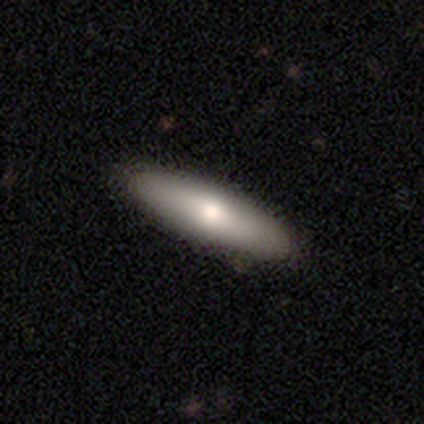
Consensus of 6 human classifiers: A smooth galaxy with no disk features (50%) that is cigar-shaped (67%).

Vote fractions:
- Smooth or featured? smooth: 50% / featured or disk: 33% / star or artifact: 17%
- How rounded? cigar-shaped: 67% / in between: 33% / round: 0%
- Merging? none: 80% / minor disturbance: 20% / major disturbance: 0% / merger: 0%